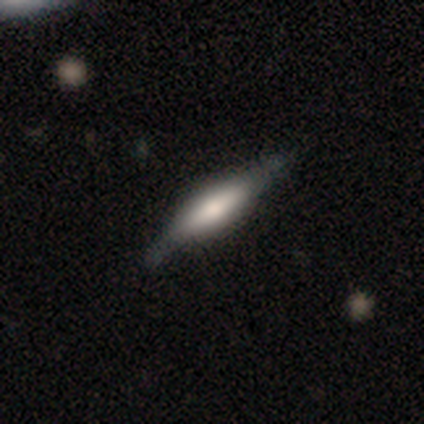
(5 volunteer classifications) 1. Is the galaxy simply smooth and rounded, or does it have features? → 80% smooth, 20% featured or disk, 0% star or artifact.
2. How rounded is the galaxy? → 75% cigar-shaped, 25% in between, 0% round.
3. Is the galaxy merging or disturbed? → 100% none, 0% minor disturbance, 0% major disturbance, 0% merger.